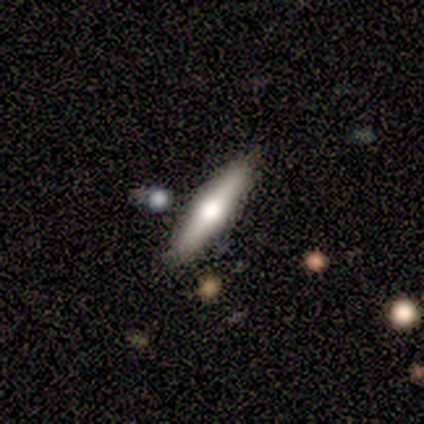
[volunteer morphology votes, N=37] smooth-or-featured: smooth: 51% | featured or disk: 46% | star or artifact: 3%
  how-rounded: cigar-shaped: 84% | in between: 16% | round: 0%
  merging: none: 81% | minor disturbance: 11% | merger: 8% | major disturbance: 0%